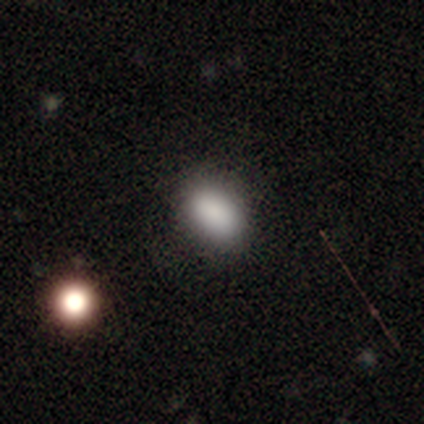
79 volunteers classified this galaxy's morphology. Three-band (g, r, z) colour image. It shows a smooth galaxy with no disk features (86%) that is in between round and cigar-shaped (84%). Merging: none (46%).